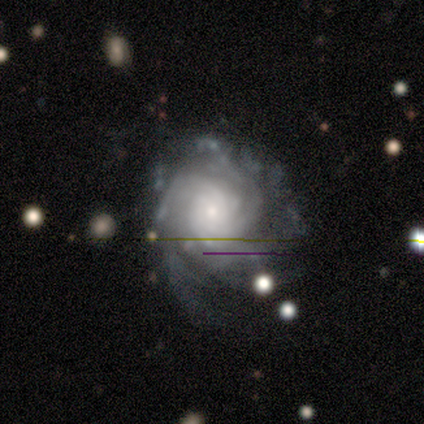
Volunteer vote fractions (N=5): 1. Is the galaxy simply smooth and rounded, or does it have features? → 100% featured or disk, 0% smooth, 0% star or artifact.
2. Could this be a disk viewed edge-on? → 100% no, 0% yes.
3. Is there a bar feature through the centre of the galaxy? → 100% no, 0% strong, 0% weak.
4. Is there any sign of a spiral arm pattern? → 100% yes, 0% no.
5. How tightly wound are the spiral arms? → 80% tight, 20% medium, 0% loose.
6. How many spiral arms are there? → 40% can't tell, 20% 3, 20% 4, 20% more than 4, 0% 1, 0% 2.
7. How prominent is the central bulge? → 60% small, 20% large, 20% moderate, 0% dominant, 0% none.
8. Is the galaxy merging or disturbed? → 40% none (tied), 40% minor disturbance (tied), 20% major disturbance, 0% merger.